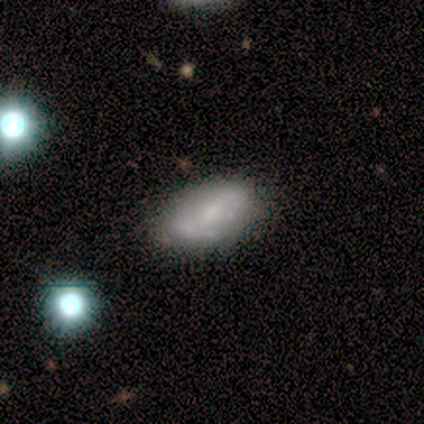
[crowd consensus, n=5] Volunteers were most divided on "smooth or featured" (2-way tie): smooth: 40%, featured or disk: 40%, star or artifact: 20%; "merging" (2-way tie): none: 50%, minor disturbance: 50%, major disturbance: 0%, merger: 0%. More confident: how rounded — in between (100%).